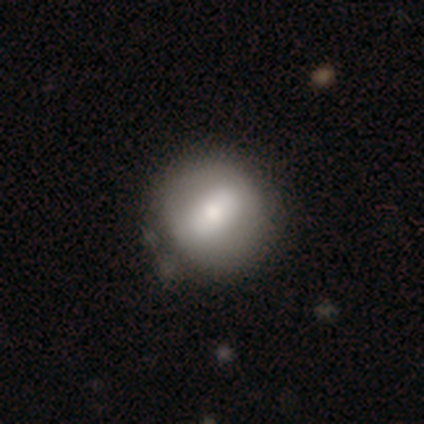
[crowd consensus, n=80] Morphology: type=smooth (57%); roundness=round (80%); merging=none (38%).